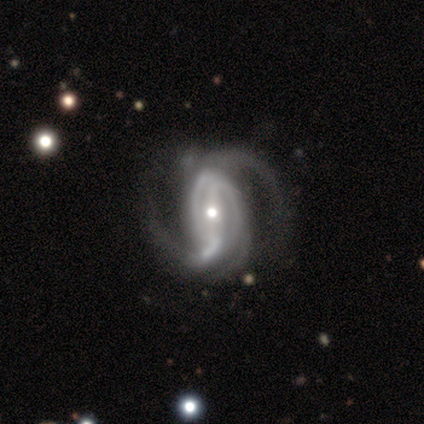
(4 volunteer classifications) Smooth or featured? featured or disk (100%)
Edge-on disk? no (100%)
Bar? strong (75%)
Spiral arms? yes (100%)
Spiral winding? medium (50%, tied with loose)
Spiral arm count? 2 (75%)
Bulge size? moderate (50%, tied with small)
Merging? none (50%)